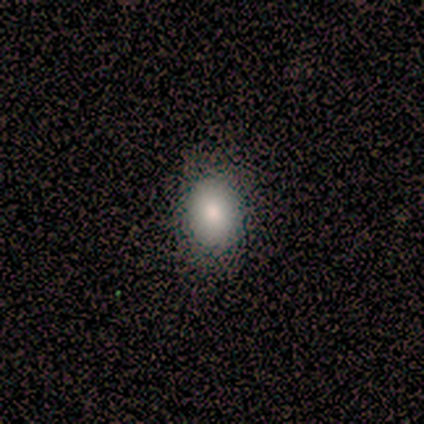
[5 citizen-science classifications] smooth 100%, featured or disk 0%, star or artifact 0%. Down the decision tree: how rounded — in between (80%); merging — none (100%).